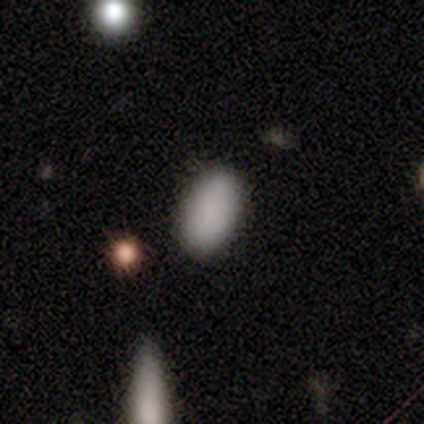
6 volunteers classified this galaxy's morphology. This is clearly a smooth galaxy (100%). How rounded: clearly in between (100%). Merging: clearly none (100%).